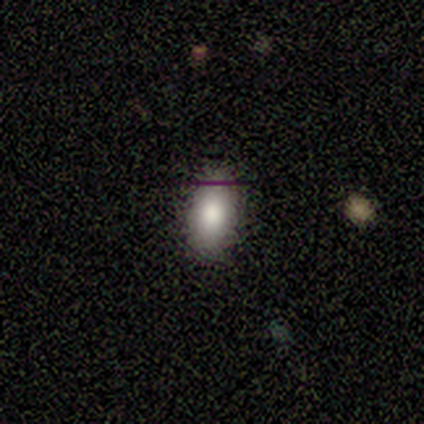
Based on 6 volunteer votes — Smooth or featured? smooth (83%)
How rounded? in between (100%)
Merging? none (100%)